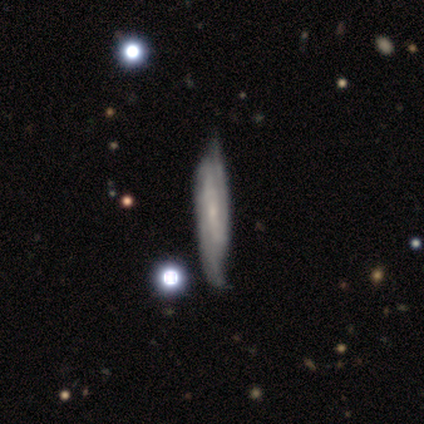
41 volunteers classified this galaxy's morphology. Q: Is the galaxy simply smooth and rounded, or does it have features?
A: featured or disk — 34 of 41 (83%).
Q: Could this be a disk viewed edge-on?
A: no — 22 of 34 (65%).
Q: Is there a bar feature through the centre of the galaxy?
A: strong — 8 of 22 (36%, tied with weak).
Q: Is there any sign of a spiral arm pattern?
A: yes — 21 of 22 (95%).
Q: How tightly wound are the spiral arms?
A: medium — 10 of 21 (48%).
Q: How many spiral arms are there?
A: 2 — 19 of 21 (90%).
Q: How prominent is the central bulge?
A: small — 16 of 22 (73%).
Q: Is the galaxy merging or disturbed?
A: none — 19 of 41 (46%).